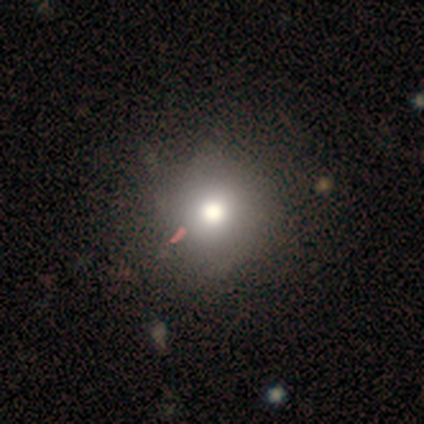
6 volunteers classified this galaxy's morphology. Smooth or featured? smooth (50%)
How rounded? round (100%)
Merging? none (50%)